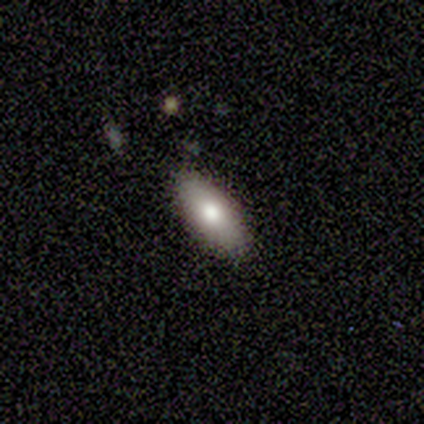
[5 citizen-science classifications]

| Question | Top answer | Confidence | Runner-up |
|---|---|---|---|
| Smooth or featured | smooth | 80% | star or artifact (20%) |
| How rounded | in between | 75% | cigar-shaped (25%) |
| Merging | none | 75% | minor disturbance (25%) |